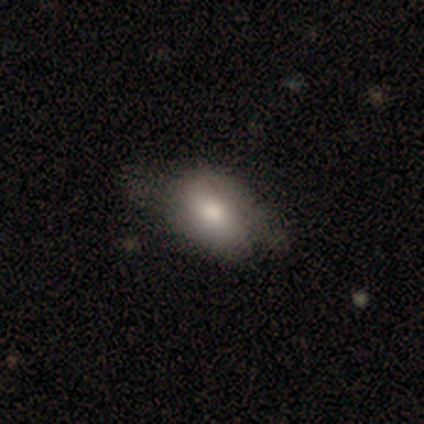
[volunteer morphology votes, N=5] Q: Smooth or featured?
A: smooth (60%); runner-up: featured or disk (40%)
Q: How rounded?
A: in between (67%); runner-up: round (33%)
Q: Merging?
A: minor disturbance (60%); runner-up: none (20%)